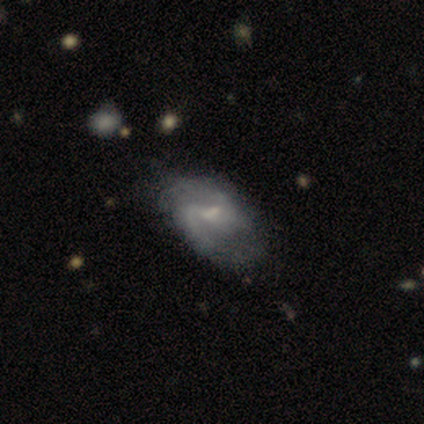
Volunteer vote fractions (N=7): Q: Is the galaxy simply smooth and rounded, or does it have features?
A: featured or disk — 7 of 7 (100%).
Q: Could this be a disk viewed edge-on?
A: no — 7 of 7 (100%).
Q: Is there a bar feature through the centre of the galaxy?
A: weak — 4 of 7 (57%).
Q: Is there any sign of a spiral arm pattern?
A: yes — 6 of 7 (86%).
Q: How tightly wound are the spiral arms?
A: medium — 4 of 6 (67%).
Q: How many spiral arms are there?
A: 2 — 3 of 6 (50%).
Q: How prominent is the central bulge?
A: small — 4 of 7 (57%).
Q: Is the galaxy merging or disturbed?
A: none — 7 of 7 (100%).